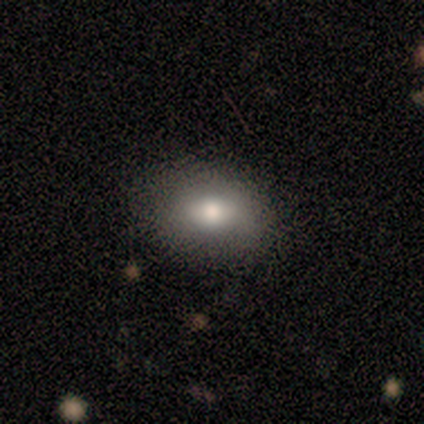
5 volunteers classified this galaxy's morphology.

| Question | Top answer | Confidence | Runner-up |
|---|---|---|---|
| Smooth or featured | smooth | 80% | featured or disk (20%) |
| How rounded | in between | 100% | — |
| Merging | none | 80% | minor disturbance (20%) |